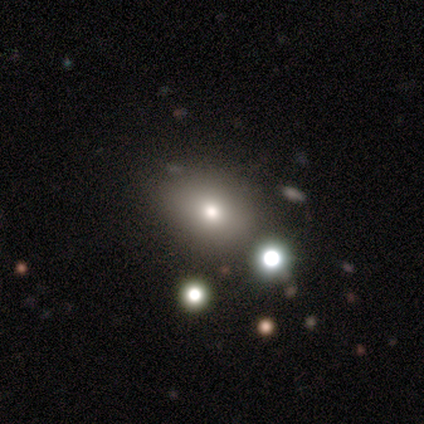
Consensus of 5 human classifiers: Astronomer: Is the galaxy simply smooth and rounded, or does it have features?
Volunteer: smooth — 60%.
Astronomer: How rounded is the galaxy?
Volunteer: in between — 100%.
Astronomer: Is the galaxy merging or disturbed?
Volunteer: none — 100%.